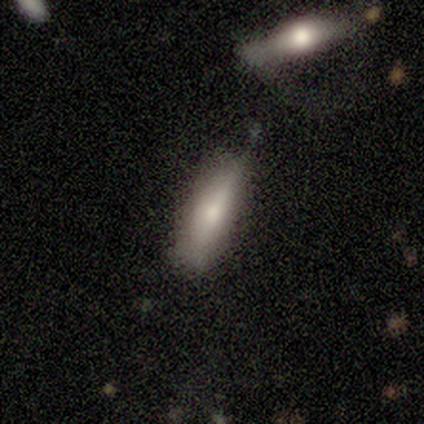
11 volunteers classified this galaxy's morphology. Volunteers were most divided on "merging": none: 50%, minor disturbance: 40%, major disturbance: 10%, merger: 0%. More confident: smooth or featured — smooth (64%); how rounded — in between (57%).